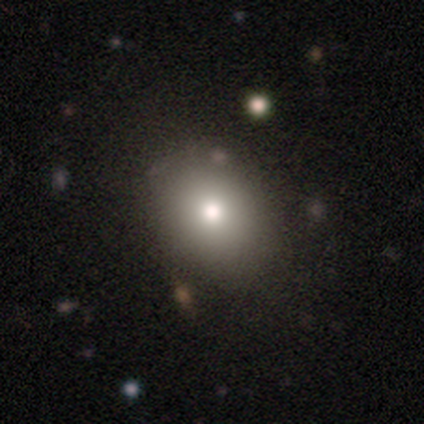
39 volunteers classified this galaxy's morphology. Smooth or featured? smooth (67%)
How rounded? round (54%)
Merging? none (50%)